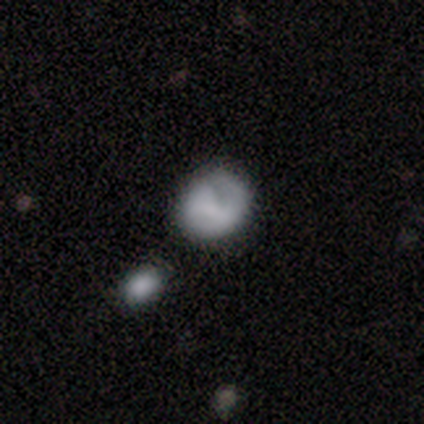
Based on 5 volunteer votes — Smooth or featured? 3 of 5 (60%) said smooth. How rounded? 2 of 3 (67%) said round. Merging? 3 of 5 (60%) said none.